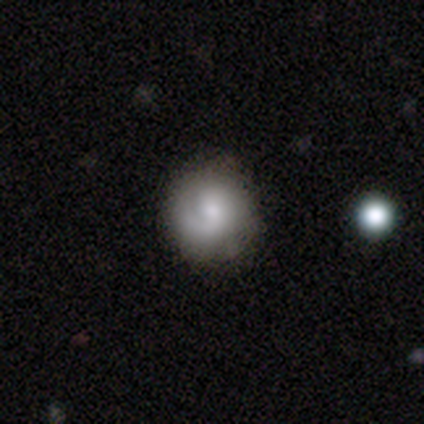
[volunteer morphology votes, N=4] Smooth or featured?
  - smooth: 50% * (tied)
  - featured or disk: 50% * (tied)
  - star or artifact: 0%
How rounded?
  - round: 100% *
  - in between: 0%
  - cigar-shaped: 0%
Merging?
  - none: 75% *
  - minor disturbance: 25%
  - major disturbance: 0%
  - merger: 0%